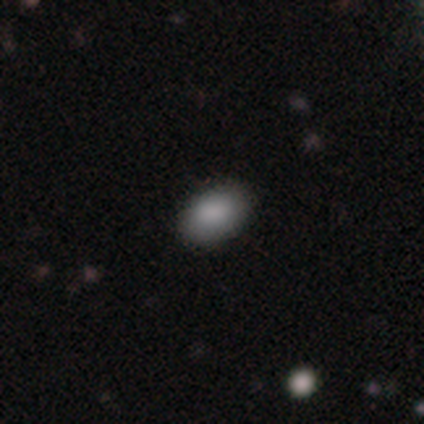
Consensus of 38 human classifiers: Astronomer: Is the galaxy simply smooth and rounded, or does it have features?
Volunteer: smooth — 95%.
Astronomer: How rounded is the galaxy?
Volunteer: in between — 86%.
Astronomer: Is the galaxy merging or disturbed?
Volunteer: none — 86%.